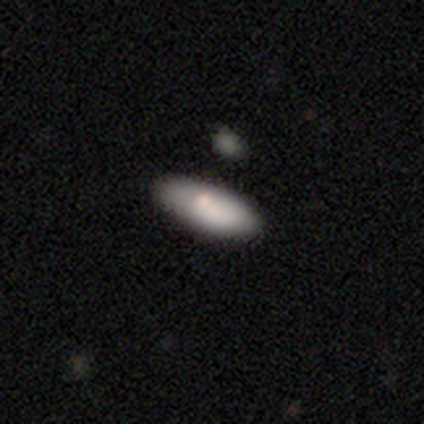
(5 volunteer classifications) Smooth or featured: smooth — 80% (featured or disk — 20%)
How rounded: in between — 100%
Merging: none — 60% (minor disturbance — 40%)